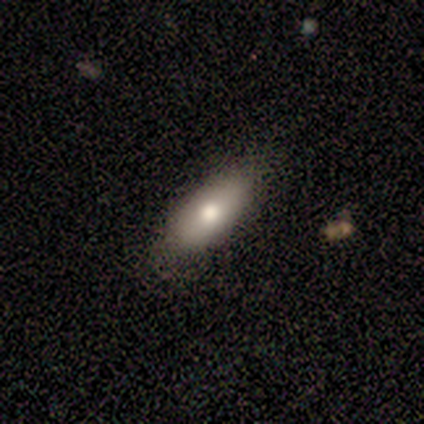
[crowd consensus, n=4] A smooth galaxy with no disk features (50%) that is in between round and cigar-shaped (100%). Merging: none (100%).